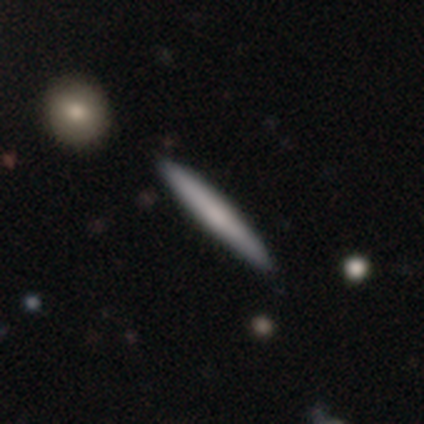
Q: Smooth or featured?
A: smooth (75%); runner-up: featured or disk (25%)
Q: How rounded?
A: cigar-shaped (100%)
Q: Merging?
A: none (50%); tied with: minor disturbance (50%)